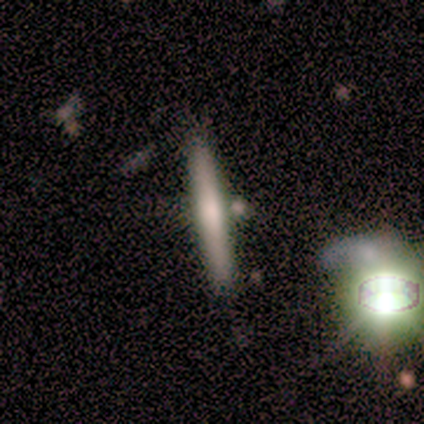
Morphology: type=smooth (60%); roundness=cigar-shaped (100%); merging=none (100%).